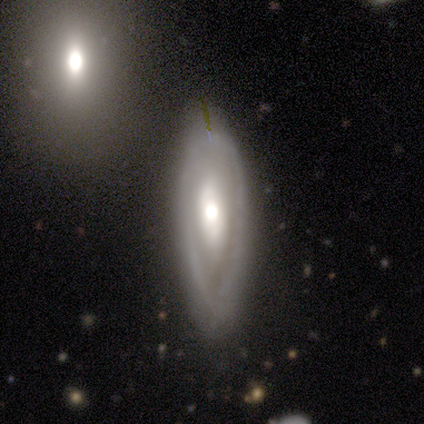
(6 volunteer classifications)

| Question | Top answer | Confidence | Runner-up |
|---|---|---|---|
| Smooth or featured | featured or disk | 67% | smooth (33%) |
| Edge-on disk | no | 100% | — |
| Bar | no | 75% | weak (25%) |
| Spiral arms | no | 75% | yes (25%) |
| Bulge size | moderate | 75% | large (25%) |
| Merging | none | 67% | minor disturbance (33%) |